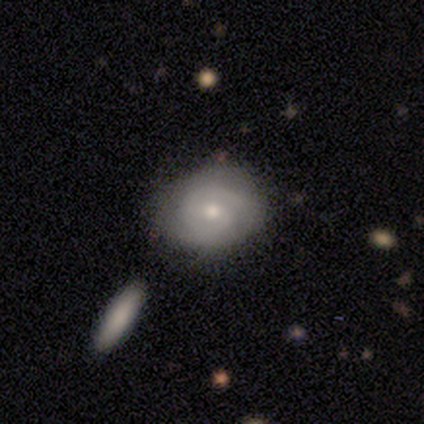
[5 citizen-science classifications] A smooth galaxy with no disk features (80%) that is round (75%). Merging: none (40%, tied with minor disturbance).